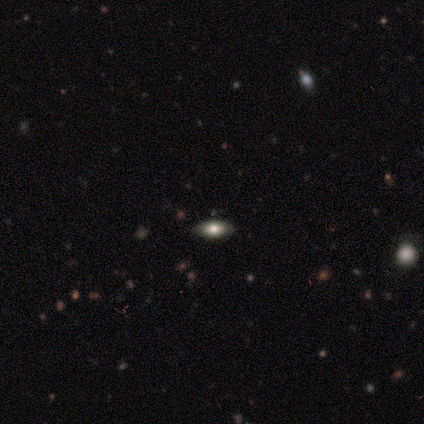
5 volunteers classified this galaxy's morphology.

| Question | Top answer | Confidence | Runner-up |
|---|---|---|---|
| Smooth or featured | smooth | 80% | star or artifact (20%) |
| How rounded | in between | 75% | cigar-shaped (25%) |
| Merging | none | 100% | — |